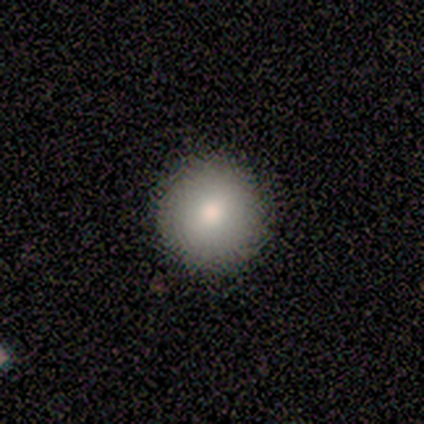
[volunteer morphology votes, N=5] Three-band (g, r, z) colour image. It shows a smooth galaxy with no disk features (60%) that is round (100%). Merging: none (100%).